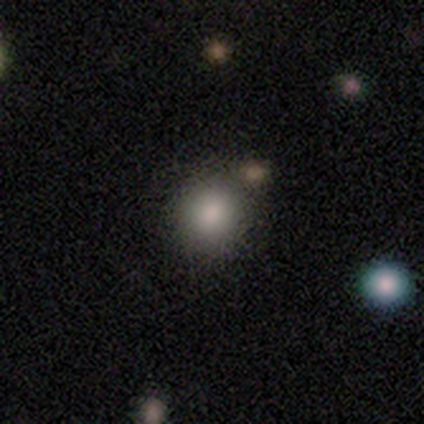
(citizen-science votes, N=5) Q: Smooth or featured?
A: smooth (80%); runner-up: star or artifact (20%)
Q: How rounded?
A: round (100%)
Q: Merging?
A: none (75%); runner-up: merger (25%)